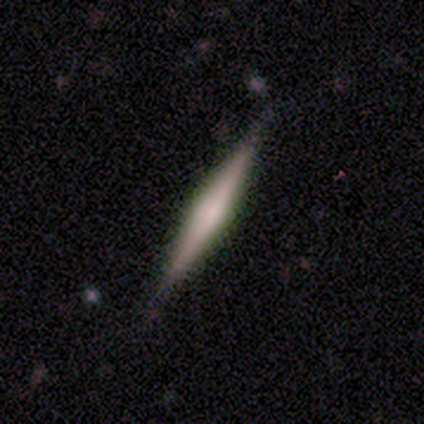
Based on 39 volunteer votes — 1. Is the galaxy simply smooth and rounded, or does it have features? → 69% featured or disk, 31% smooth, 0% star or artifact.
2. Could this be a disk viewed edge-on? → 100% yes, 0% no.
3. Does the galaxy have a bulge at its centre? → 67% rounded, 22% none, 11% boxy.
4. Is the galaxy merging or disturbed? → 85% none, 10% minor disturbance, 5% major disturbance, 0% merger.